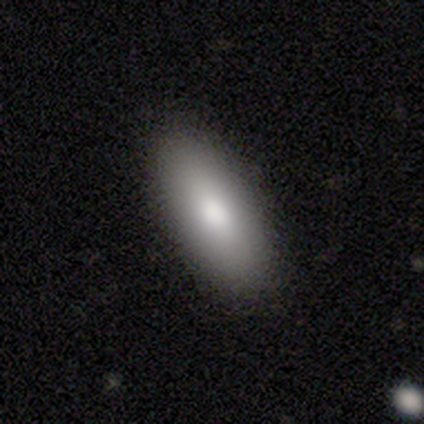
This appears to be a smooth galaxy with no disk features (100%) that is in between round and cigar-shaped (75%). Merging: none (100%).